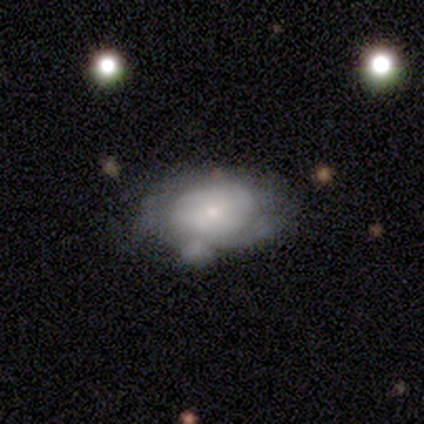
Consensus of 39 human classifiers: Smooth or featured: featured or disk — 59% (smooth — 36%)
Edge-on disk: no — 91% (yes — 9%)
Bar: no — 76% (weak — 14%)
Spiral arms: yes — 62% (no — 38%)
Spiral winding: medium — 54% (tight — 31%)
Spiral arm count: can't tell — 62% (2 — 31%)
Bulge size: small — 76% (moderate — 24%)
Merging: minor disturbance — 35% (none — 32%)